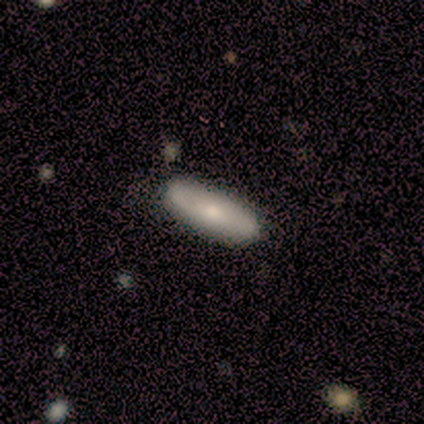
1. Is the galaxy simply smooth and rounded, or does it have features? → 75% smooth, 25% star or artifact, 0% featured or disk.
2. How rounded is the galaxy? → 100% in between, 0% round, 0% cigar-shaped.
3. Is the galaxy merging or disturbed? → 100% none, 0% minor disturbance, 0% major disturbance, 0% merger.